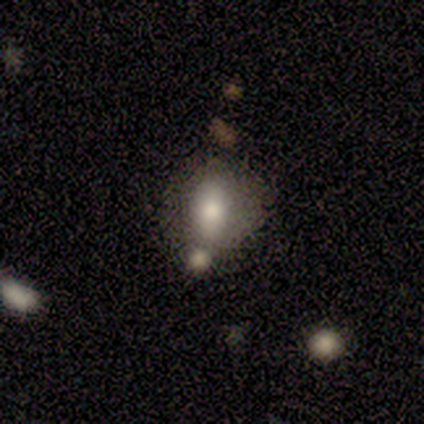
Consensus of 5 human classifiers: Morphology: type=smooth (100%); roundness=in between (100%); merging=minor disturbance (60%).